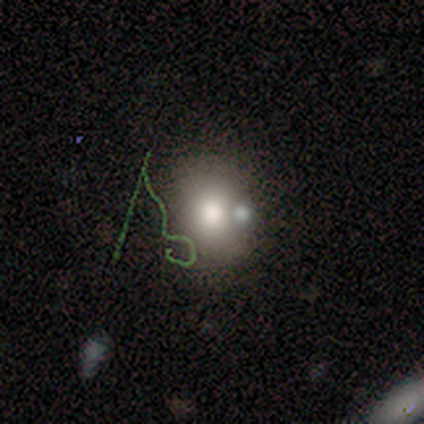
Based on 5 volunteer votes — This is likely a star or artifact rather than a galaxy (60%).